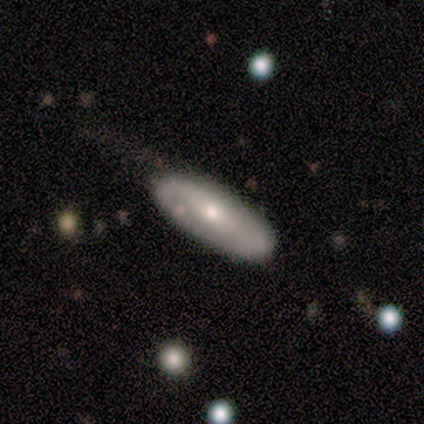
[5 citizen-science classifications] Q: Smooth or featured?
A: smooth (40%); tied with: featured or disk (40%)
Q: How rounded?
A: in between (100%)
Q: Merging?
A: none (100%)